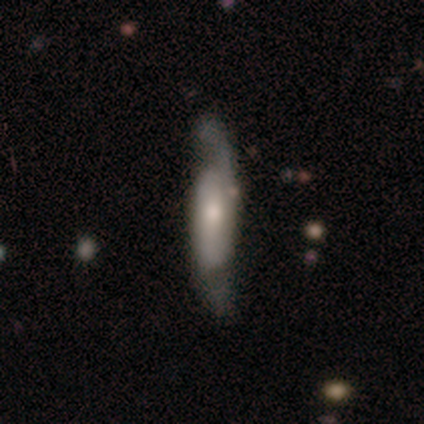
smooth-or-featured: featured or disk: 60% | smooth: 40% | star or artifact: 0%
  disk-edge-on: no: 67% | yes: 33%
    bar: strong: 50% (tied) | no: 50% (tied) | weak: 0%
    has-spiral-arms: yes: 100% | no: 0%
      spiral-winding: tight: 100% | medium: 0% | loose: 0%
      spiral-arm-count: 2: 100% | 1: 0% | 3: 0% | 4: 0% | more than 4: 0% | can't tell: 0%
    bulge-size: large: 50% (tied) | small: 50% (tied) | dominant: 0% | moderate: 0% | none: 0%
  merging: none: 100% | minor disturbance: 0% | major disturbance: 0% | merger: 0%